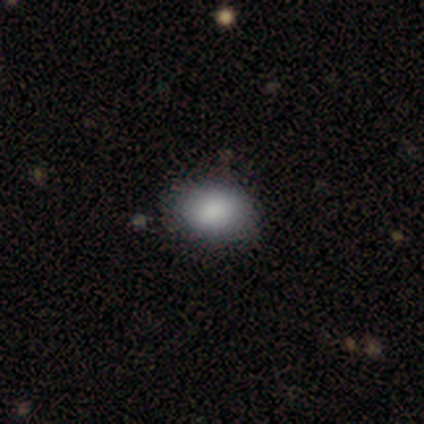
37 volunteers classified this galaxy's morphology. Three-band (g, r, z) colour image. It shows a smooth galaxy with no disk features (89%) that is in between round and cigar-shaped (79%). Merging: none (79%).